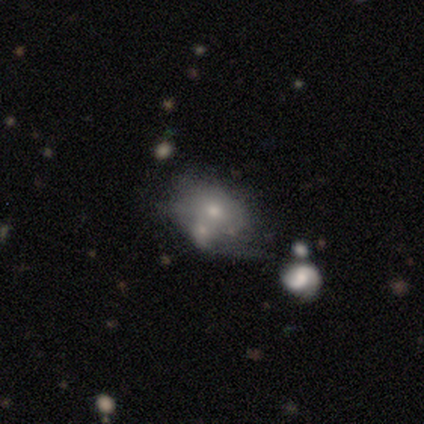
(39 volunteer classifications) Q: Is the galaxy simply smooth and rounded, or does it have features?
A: smooth — 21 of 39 (54%).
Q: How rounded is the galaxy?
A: in between — 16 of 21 (76%).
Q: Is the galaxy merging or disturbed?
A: merger — 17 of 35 (49%).